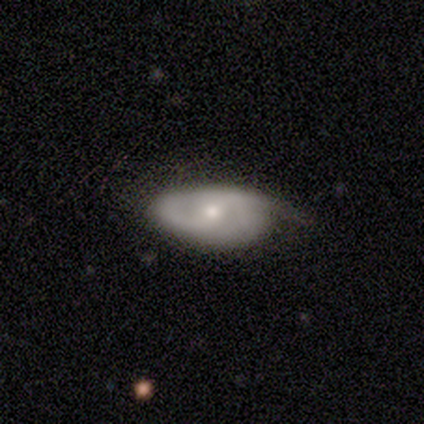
Smooth or featured? featured or disk (100%)
Edge-on disk? no (67%)
Bar? weak (75%)
Spiral arms? yes (100%)
Spiral winding? loose (75%)
Spiral arm count? 2 (75%)
Bulge size? moderate (100%)
Merging? minor disturbance (67%)